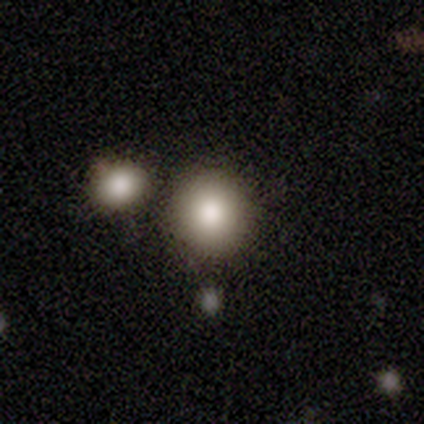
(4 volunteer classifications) Smooth or featured: smooth — 100%
How rounded: round — 100%
Merging: none — 75% (merger — 25%)